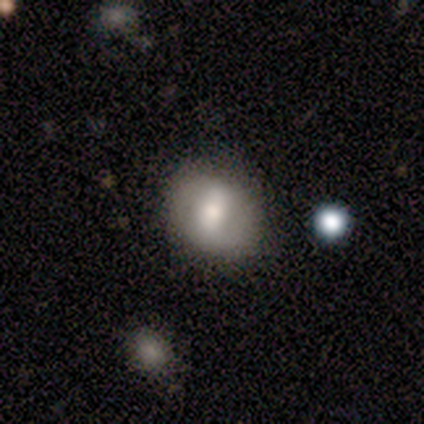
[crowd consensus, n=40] A smooth galaxy with no disk features (45%, tied with featured or disk) that is round (56%).

Vote fractions:
- Smooth or featured? smooth: 45% (tied) / featured or disk: 45% (tied) / star or artifact: 10%
- How rounded? round: 56% / in between: 44% / cigar-shaped: 0%
- Merging? none: 78% / minor disturbance: 17% / major disturbance: 3% / merger: 3%